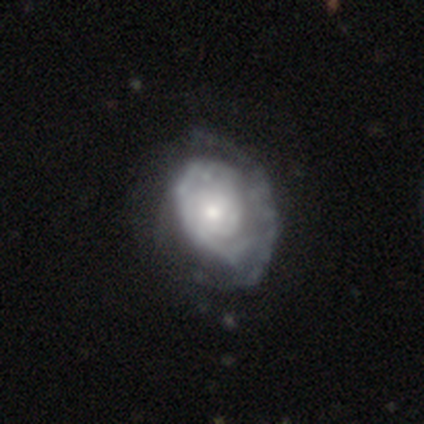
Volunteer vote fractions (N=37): smooth-or-featured: featured or disk: 78% | smooth: 19% | star or artifact: 3%
  disk-edge-on: no: 97% | yes: 3%
    bar: no: 93% | weak: 7% | strong: 0%
    has-spiral-arms: yes: 86% | no: 14%
      spiral-winding: tight: 67% | medium: 25% | loose: 8%
      spiral-arm-count: can't tell: 54% | 2: 21% | 1: 17% | 3: 4% | more than 4: 4% | 4: 0%
    bulge-size: moderate: 54% | small: 39% | large: 7% | dominant: 0% | none: 0%
  merging: none: 36% | minor disturbance: 17% | major disturbance: 17% | merger: 3%